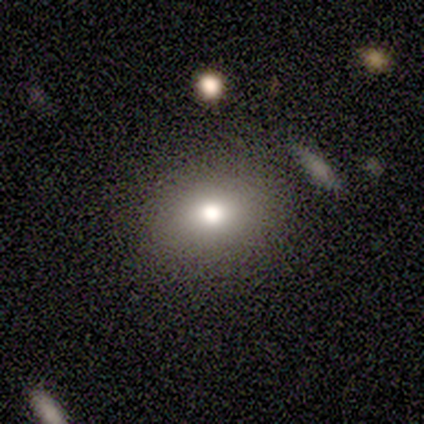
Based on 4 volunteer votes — This is possibly a smooth galaxy (50%). How rounded: clearly in between (100%). Merging: likely none (67%).